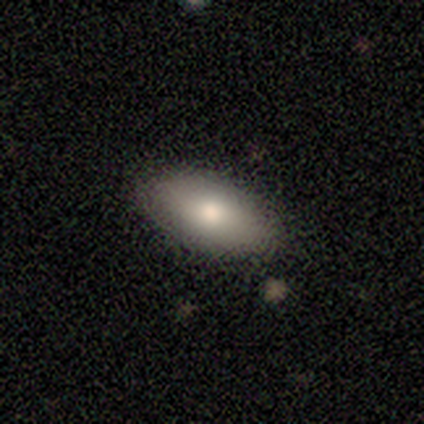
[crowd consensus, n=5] Smooth or featured? 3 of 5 (60%) said smooth. How rounded? 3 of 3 (100%) said in between. Merging? 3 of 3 (100%) said none.